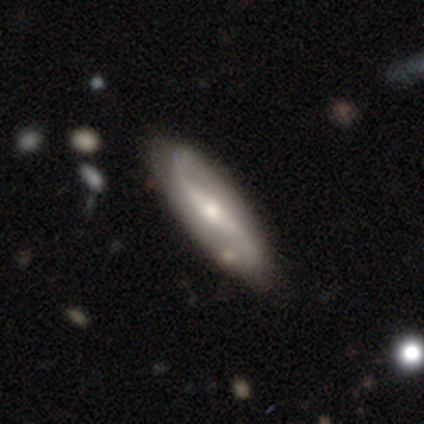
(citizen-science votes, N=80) smooth-or-featured: featured or disk: 82% | smooth: 14% | star or artifact: 4%
  disk-edge-on: no: 83% | yes: 17%
    bar: strong: 42% | no: 31% | weak: 27%
    has-spiral-arms: yes: 95% | no: 5%
      spiral-winding: loose: 63% | medium: 25% | tight: 12%
      spiral-arm-count: 2: 92% | can't tell: 8% | 1: 0% | 3: 0% | 4: 0% | more than 4: 0%
    bulge-size: moderate: 60% | small: 31% | large: 7% | dominant: 2% | none: 0%
  merging: none: 44% | minor disturbance: 12% | merger: 3% | major disturbance: 1%